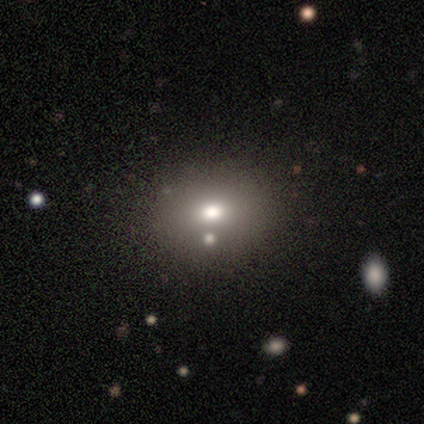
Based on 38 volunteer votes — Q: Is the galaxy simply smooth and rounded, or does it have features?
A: smooth — 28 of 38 (74%).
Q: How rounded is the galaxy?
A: round — 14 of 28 (50%, tied with in between).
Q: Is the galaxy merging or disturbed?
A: none — 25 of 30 (83%).